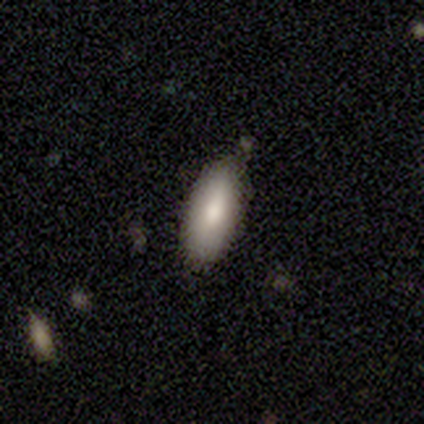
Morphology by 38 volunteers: Smooth or featured?
  - smooth: 87% *
  - featured or disk: 11%
  - star or artifact: 3%
How rounded?
  - in between: 85% *
  - cigar-shaped: 12%
  - round: 3%
Merging?
  - none: 68% *
  - minor disturbance: 27%
  - major disturbance: 5%
  - merger: 0%